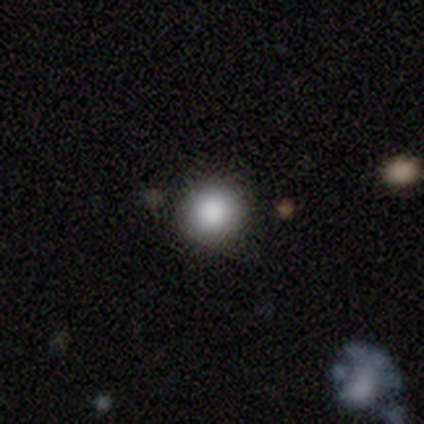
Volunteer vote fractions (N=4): Overall: smooth (100%). How rounded: round (100%). Merging: none (100%).